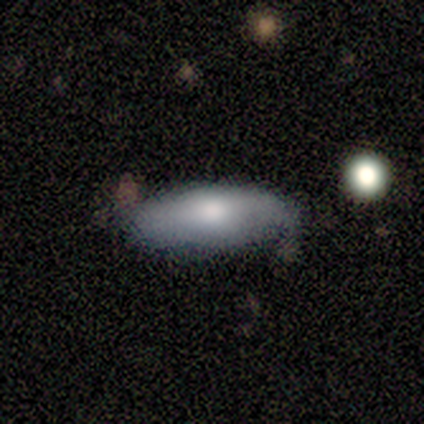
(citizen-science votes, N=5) smooth_or_featured: featured or disk (p=0.60) [alt: smooth p=0.40]
disk_edge_on: yes (p=0.67) [alt: no p=0.33]
edge_on_bulge: rounded (p=1.00)
merging: minor disturbance (p=0.60) [alt: none p=0.40]